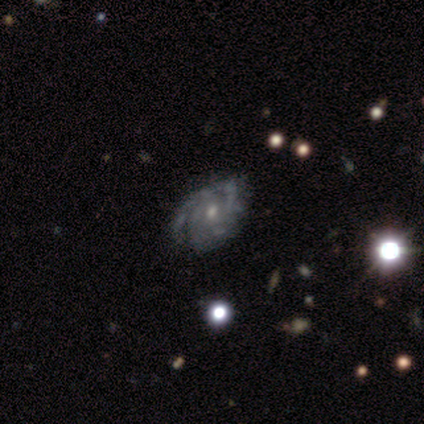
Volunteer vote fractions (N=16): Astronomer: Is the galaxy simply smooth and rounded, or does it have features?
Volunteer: featured or disk — 94%.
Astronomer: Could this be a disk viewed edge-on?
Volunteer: no — 100%.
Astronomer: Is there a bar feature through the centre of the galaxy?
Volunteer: no — 87%.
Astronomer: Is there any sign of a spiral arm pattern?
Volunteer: yes — 100%.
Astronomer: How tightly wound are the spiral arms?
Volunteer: tight — 73%.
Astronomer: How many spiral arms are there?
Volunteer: can't tell — 47% (runner-up: 2, 33%).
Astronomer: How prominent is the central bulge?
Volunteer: small — 60% (runner-up: moderate, 40%).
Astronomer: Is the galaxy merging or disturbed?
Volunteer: none — 73%.